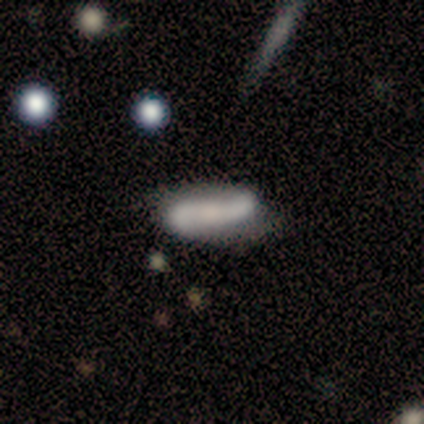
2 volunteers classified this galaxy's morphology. A smooth galaxy with no disk features (100%) that is in between round and cigar-shaped (100%).

Vote fractions:
- Smooth or featured? smooth: 100% / featured or disk: 0% / star or artifact: 0%
- How rounded? in between: 100% / round: 0% / cigar-shaped: 0%
- Merging? none: 100% / minor disturbance: 0% / major disturbance: 0% / merger: 0%